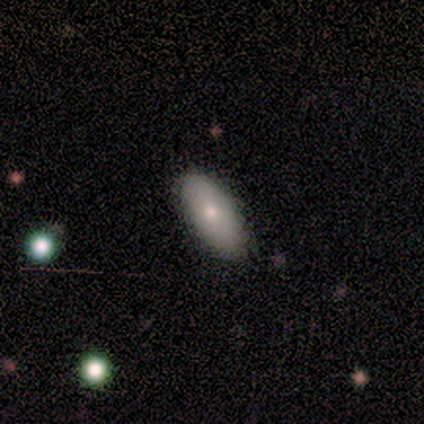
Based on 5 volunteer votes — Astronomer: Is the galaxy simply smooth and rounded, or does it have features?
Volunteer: smooth — 100%.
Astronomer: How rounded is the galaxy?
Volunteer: in between — 100%.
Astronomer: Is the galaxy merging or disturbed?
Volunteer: none — 100%.